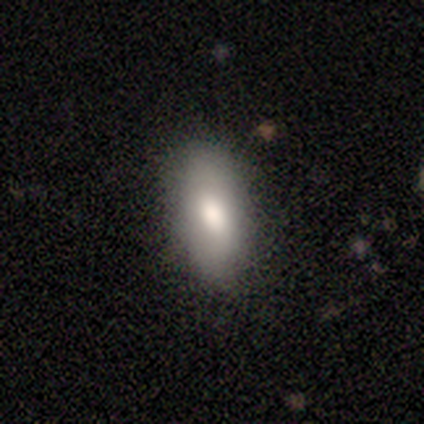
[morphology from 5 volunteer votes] type=smooth (80%); roundness=in between (100%); merging=none (80%).